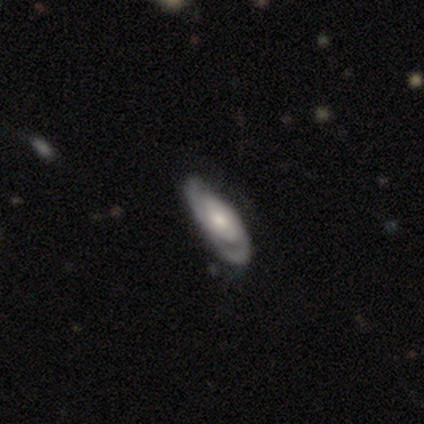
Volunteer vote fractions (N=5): smooth_or_featured: featured or disk (p=1.00)
disk_edge_on: no (p=0.60) [alt: yes p=0.40]
bar: no (p=1.00)
has_spiral_arms: no (p=0.67) [alt: yes p=0.33]
bulge_size: moderate (p=1.00)
merging: none (p=0.80) [alt: minor disturbance p=0.20]